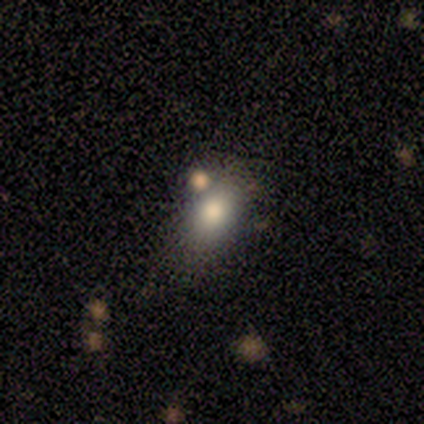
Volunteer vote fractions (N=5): Volunteers were most divided on "how rounded" (2-way tie): in between: 50%, cigar-shaped: 50%, round: 0%. More confident: smooth or featured — smooth (80%); merging — none (50%).